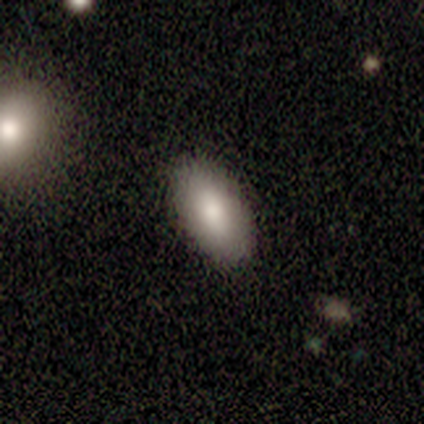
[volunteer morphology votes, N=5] A smooth galaxy with no disk features (80%) that is in between round and cigar-shaped (100%).

Vote fractions:
- Smooth or featured? smooth: 80% / star or artifact: 20% / featured or disk: 0%
- How rounded? in between: 100% / round: 0% / cigar-shaped: 0%
- Merging? none: 75% / minor disturbance: 25% / major disturbance: 0% / merger: 0%